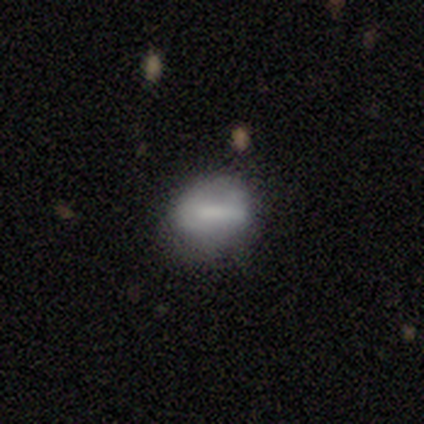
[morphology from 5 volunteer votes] Smooth or featured: smooth — 40% (tied with featured or disk — 40%)
How rounded: in between — 100%
Merging: none — 75% (minor disturbance — 25%)